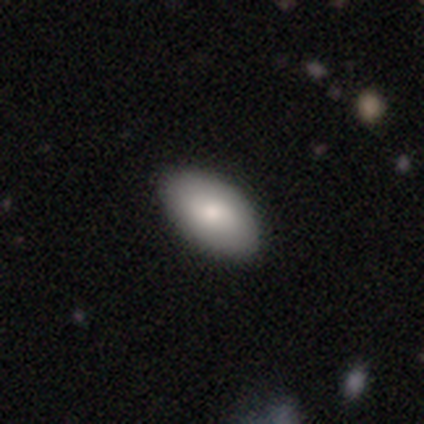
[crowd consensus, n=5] smooth-or-featured: smooth: 100% | featured or disk: 0% | star or artifact: 0%
  how-rounded: in between: 100% | round: 0% | cigar-shaped: 0%
  merging: none: 80% | minor disturbance: 20% | major disturbance: 0% | merger: 0%